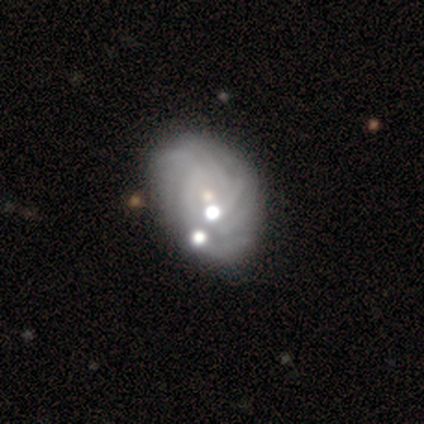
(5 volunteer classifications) smooth-or-featured: featured or disk: 100% | smooth: 0% | star or artifact: 0%
  disk-edge-on: no: 100% | yes: 0%
    bar: no: 60% | strong: 20% | weak: 20%
    has-spiral-arms: yes: 100% | no: 0%
      spiral-winding: tight: 80% | loose: 20% | medium: 0%
      spiral-arm-count: more than 4: 40% (tied) | can't tell: 40% (tied) | 4: 20% | 1: 0% | 2: 0% | 3: 0%
    bulge-size: small: 60% | moderate: 40% | dominant: 0% | large: 0% | none: 0%
  merging: none: 80% | minor disturbance: 20% | major disturbance: 0% | merger: 0%